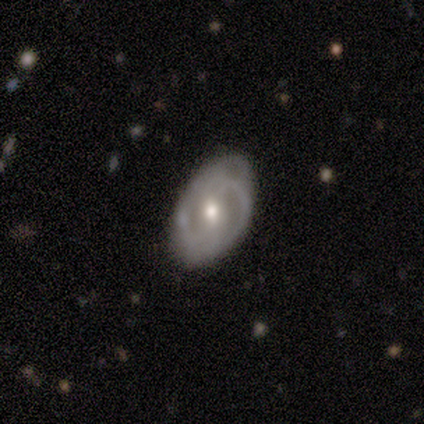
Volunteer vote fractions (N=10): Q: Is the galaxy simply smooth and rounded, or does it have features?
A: featured or disk — 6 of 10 (60%).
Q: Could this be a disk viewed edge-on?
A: no — 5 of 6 (83%).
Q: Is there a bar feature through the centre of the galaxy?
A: no — 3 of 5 (60%).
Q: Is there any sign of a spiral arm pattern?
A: yes — 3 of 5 (60%).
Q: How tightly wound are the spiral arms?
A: medium — 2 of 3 (67%).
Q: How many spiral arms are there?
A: can't tell — 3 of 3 (100%).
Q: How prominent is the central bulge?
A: moderate — 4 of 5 (80%).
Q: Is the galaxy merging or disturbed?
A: none — 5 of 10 (50%).